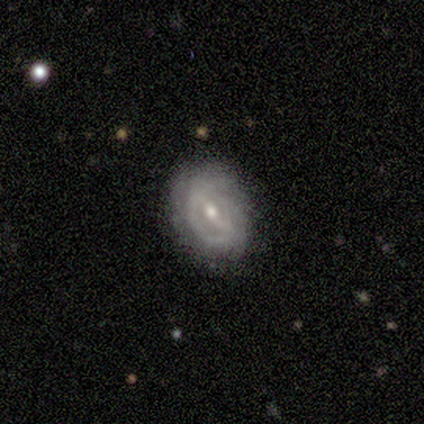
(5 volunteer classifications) Smooth or featured: featured or disk — 80% (smooth — 20%)
Edge-on disk: no — 100%
Bar: strong — 100%
Spiral arms: yes — 50% (tied with no — 50%)
Spiral winding: medium — 100%
Spiral arm count: 2 — 100%
Bulge size: small — 75% (moderate — 25%)
Merging: none — 100%